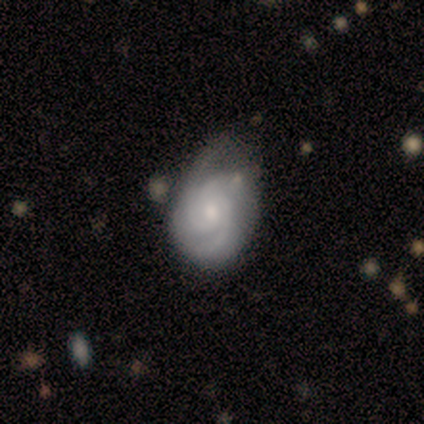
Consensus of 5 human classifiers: featured or disk 80%, smooth 20%, star or artifact 0%. Down the decision tree: edge-on disk — no (100%); bar — no (75%); spiral arms — yes (75%); spiral arm count — 3 (67%); spiral winding — medium (67%); bulge size — moderate (50%); merging — minor disturbance (60%).